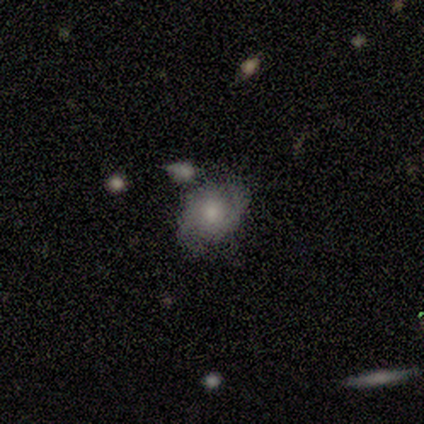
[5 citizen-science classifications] Volunteers were most divided on "merging" (2-way tie): minor disturbance: 40%, merger: 40%, none: 20%, major disturbance: 0%. More confident: how rounded — in between (67%); smooth or featured — smooth (60%).